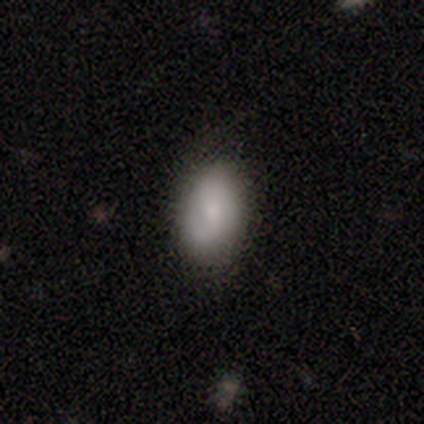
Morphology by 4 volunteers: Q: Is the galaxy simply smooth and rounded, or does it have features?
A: smooth — 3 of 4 (75%).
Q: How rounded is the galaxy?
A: in between — 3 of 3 (100%).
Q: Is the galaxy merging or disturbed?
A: none — 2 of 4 (50%).